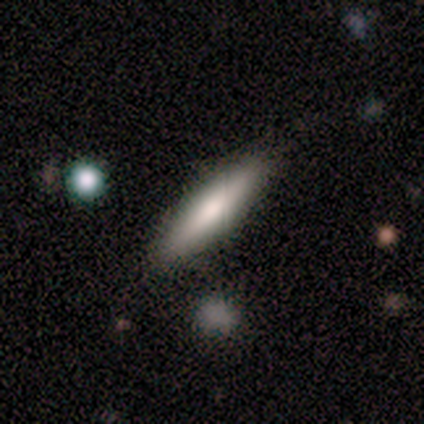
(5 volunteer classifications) Smooth or featured? smooth (80%)
How rounded? in between (50%, tied with cigar-shaped)
Merging? none (100%)